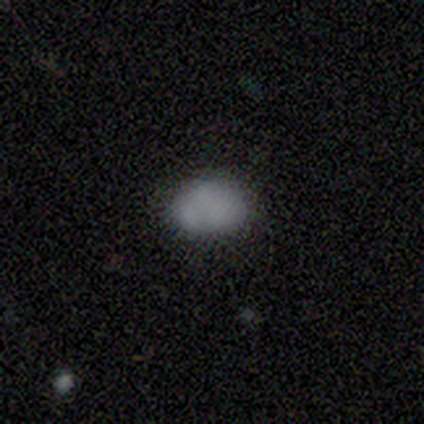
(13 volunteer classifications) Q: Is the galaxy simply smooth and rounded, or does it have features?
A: smooth — 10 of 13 (77%).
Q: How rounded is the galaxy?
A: in between — 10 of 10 (100%).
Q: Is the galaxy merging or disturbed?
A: none — 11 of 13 (85%).